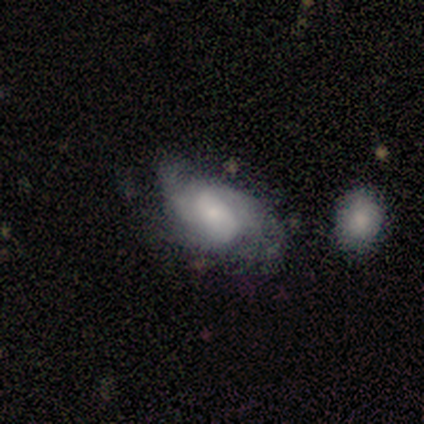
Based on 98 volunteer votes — Volunteers were most divided on "merging": minor disturbance: 34%, none: 33%, major disturbance: 23%, merger: 11%. Remaining: edge-on disk — no (99%); spiral arms — yes (87%); smooth or featured — featured or disk (69%); bar — no (63%); spiral winding — medium (47%); spiral arm count — can't tell (43%); bulge size — small (39%).